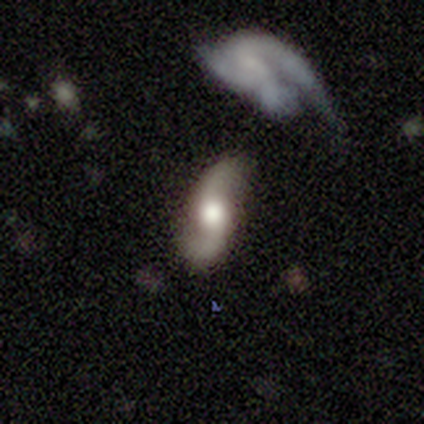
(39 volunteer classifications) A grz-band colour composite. It shows a featured or disk galaxy (87%) with no bar (67%), 2 (93%) loose (80%) spiral arms (91%) and a large central bulge (58%). Merging: none (57%).